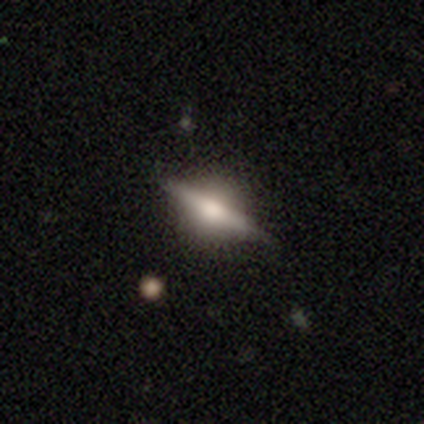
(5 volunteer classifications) Q: Smooth or featured?
A: featured or disk (100%)
Q: Edge-on disk?
A: yes (100%)
Q: Edge-on bulge?
A: rounded (100%)
Q: Merging?
A: none (100%)